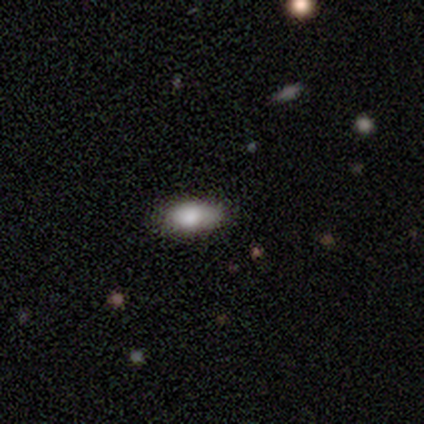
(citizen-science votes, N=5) This is clearly a smooth galaxy (100%). How rounded: clearly in between (100%). Merging: clearly none (80%).